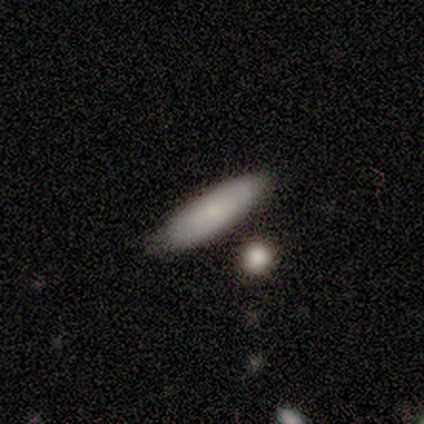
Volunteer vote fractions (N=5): Volunteers were most divided on "smooth or featured": smooth: 60%, featured or disk: 40%, star or artifact: 0%. More confident: merging — none (80%); how rounded — cigar-shaped (67%).